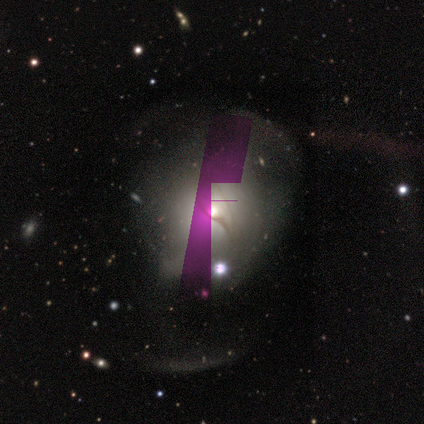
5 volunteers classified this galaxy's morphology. Smooth or featured? star or artifact (80%)